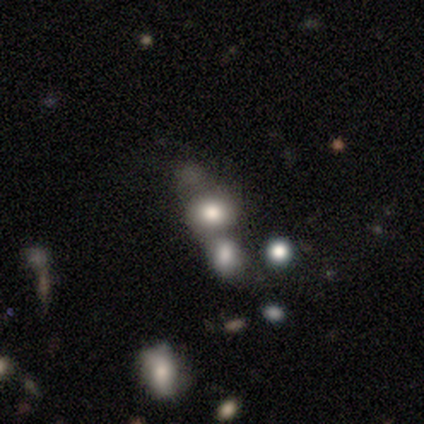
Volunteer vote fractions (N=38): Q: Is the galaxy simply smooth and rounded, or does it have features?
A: smooth — 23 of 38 (61%).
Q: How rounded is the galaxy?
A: round — 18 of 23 (78%).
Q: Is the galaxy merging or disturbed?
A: merger — 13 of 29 (45%).